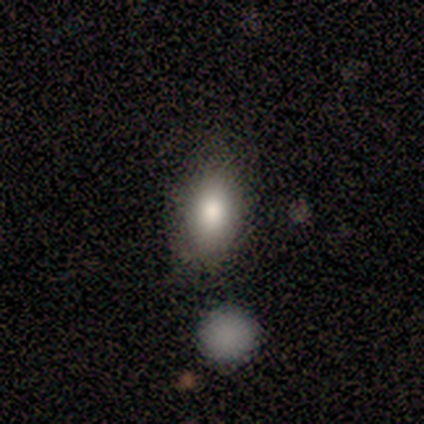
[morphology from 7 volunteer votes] Q: Smooth or featured?
A: smooth (57%); runner-up: featured or disk (29%)
Q: How rounded?
A: in between (100%)
Q: Merging?
A: none (100%)